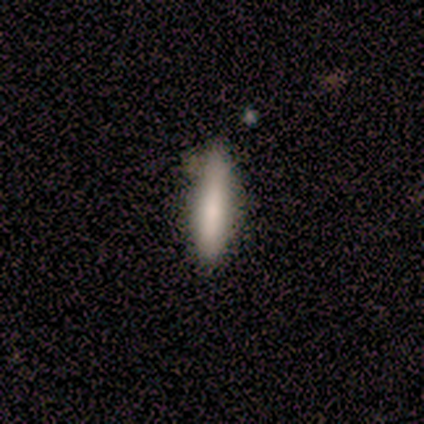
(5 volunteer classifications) Morphology: type=featured or disk (40%, tied with star or artifact); edge-on=yes (100%); edge-on bulge=none (50%, tied with rounded); merging=none (100%).